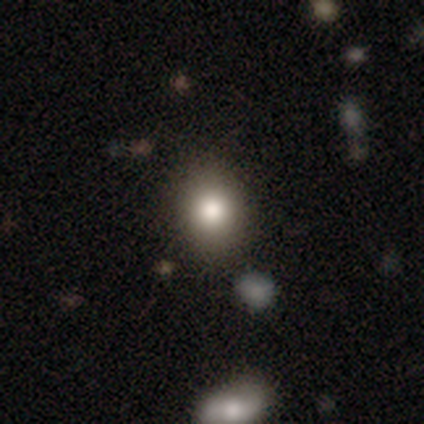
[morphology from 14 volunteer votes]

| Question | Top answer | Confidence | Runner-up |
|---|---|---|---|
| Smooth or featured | smooth | 79% | star or artifact (21%) |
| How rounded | round | 82% | in between (18%) |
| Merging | none | 100% | — |